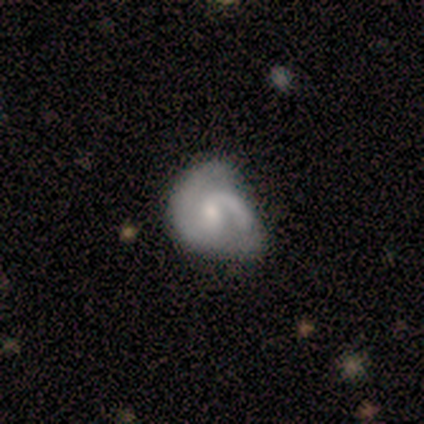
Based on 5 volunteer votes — Smooth or featured: featured or disk — 60% (smooth — 40%)
Edge-on disk: no — 100%
Bar: no — 67% (weak — 33%)
Spiral arms: yes — 100%
Spiral winding: loose — 67% (medium — 33%)
Spiral arm count: 2 — 100%
Bulge size: moderate — 67% (small — 33%)
Merging: minor disturbance — 60% (none — 40%)